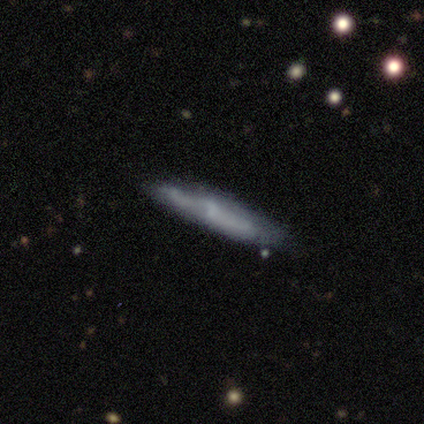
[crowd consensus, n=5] smooth 100%, featured or disk 0%, star or artifact 0%. Down the decision tree: how rounded — cigar-shaped (100%); merging — none (60%).